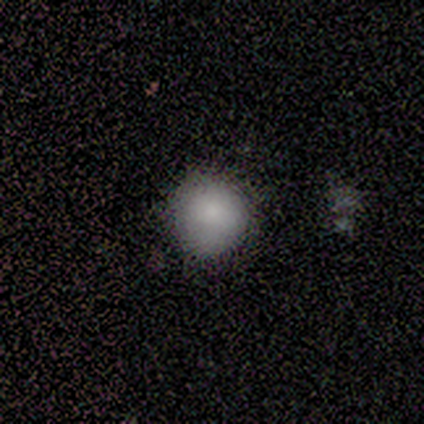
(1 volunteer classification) Consensus on every question: smooth or featured — star or artifact (100%).